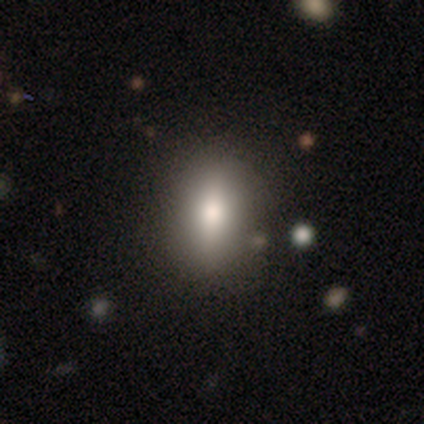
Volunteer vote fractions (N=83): smooth-or-featured: smooth: 75% | featured or disk: 13% | star or artifact: 12%
  how-rounded: in between: 63% | round: 19% | cigar-shaped: 18%
  merging: none: 88% | minor disturbance: 5% | major disturbance: 5% | merger: 1%